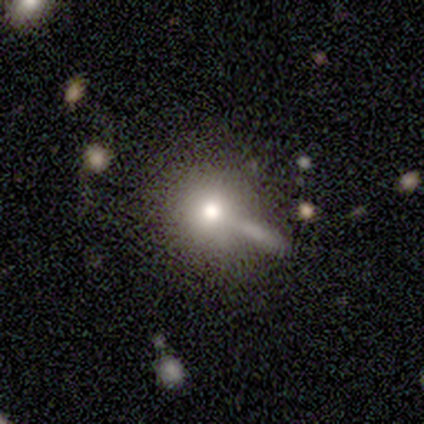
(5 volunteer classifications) Q: Smooth or featured?
A: smooth (80%); runner-up: star or artifact (20%)
Q: How rounded?
A: round (100%)
Q: Merging?
A: none (50%); tied with: merger (50%)